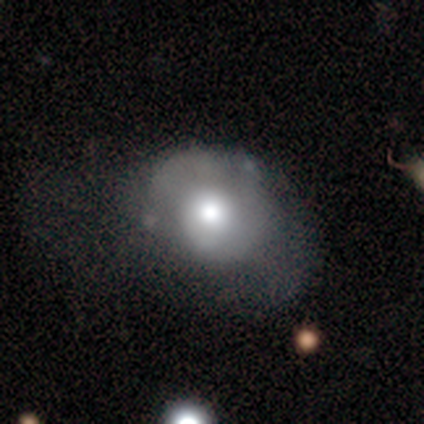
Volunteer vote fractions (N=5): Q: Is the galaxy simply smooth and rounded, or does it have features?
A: smooth — 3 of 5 (60%).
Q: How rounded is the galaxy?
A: in between — 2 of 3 (67%).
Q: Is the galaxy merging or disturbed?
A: major disturbance — 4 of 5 (80%).